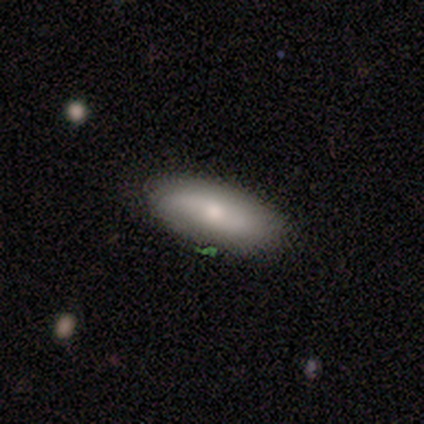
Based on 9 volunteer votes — Q: Smooth or featured?
A: smooth (67%); runner-up: featured or disk (33%)
Q: How rounded?
A: in between (50%); runner-up: cigar-shaped (33%)
Q: Merging?
A: none (100%)